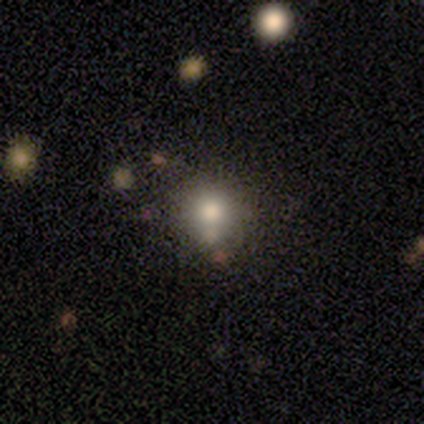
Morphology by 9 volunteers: Smooth or featured?
  - smooth: 100% *
  - featured or disk: 0%
  - star or artifact: 0%
How rounded?
  - round: 100% *
  - in between: 0%
  - cigar-shaped: 0%
Merging?
  - none: 56% *
  - merger: 22%
  - minor disturbance: 11%
  - major disturbance: 11%